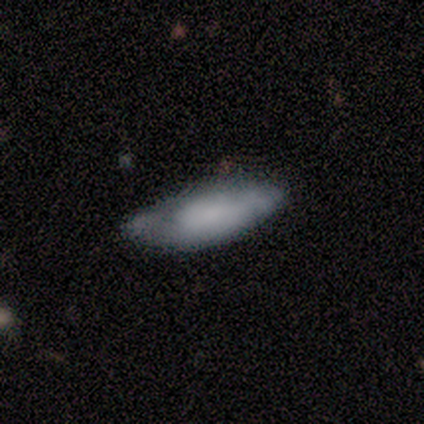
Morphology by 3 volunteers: A smooth galaxy with no disk features (67%) that is in between round and cigar-shaped (50%, tied with cigar-shaped). Merging: none (33%, tied with minor disturbance and major disturbance).